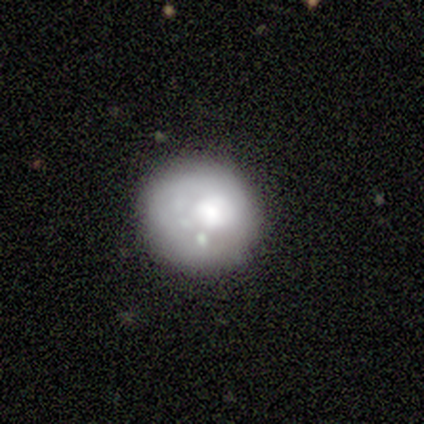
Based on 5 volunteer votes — This is marginally a smooth galaxy (40%, tied with featured or disk). How rounded: possibly round (50%, tied with in between). Merging: possibly none (50%, tied with minor disturbance).